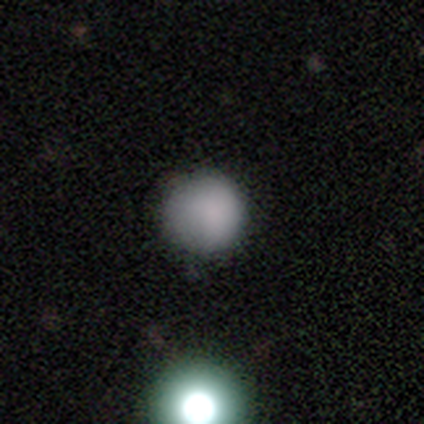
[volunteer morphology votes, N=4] Smooth or featured? 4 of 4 (100%) said smooth. How rounded? 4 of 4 (100%) said round. Merging? 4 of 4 (100%) said none.